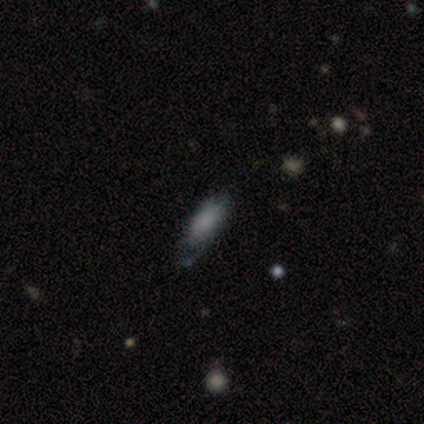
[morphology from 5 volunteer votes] type=smooth (60%); roundness=cigar-shaped (100%); merging=minor disturbance (80%).